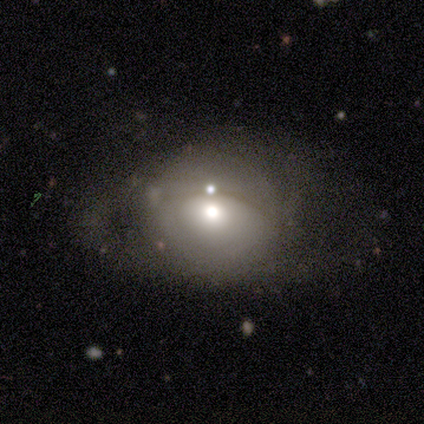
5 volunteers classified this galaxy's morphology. Smooth or featured?
  - featured or disk: 60% *
  - smooth: 40%
  - star or artifact: 0%
Edge-on disk?
  - no: 67% *
  - yes: 33%
Bar?
  - no: 100% *
  - strong: 0%
  - weak: 0%
Spiral arms?
  - yes: 50% * (tied)
  - no: 50% * (tied)
Spiral winding?
  - medium: 100% *
  - tight: 0%
  - loose: 0%
Spiral arm count?
  - can't tell: 100% *
  - 1: 0%
  - 2: 0%
  - 3: 0%
  - 4: 0%
  - more than 4: 0%
Bulge size?
  - large: 50% * (tied)
  - moderate: 50% * (tied)
  - dominant: 0%
  - small: 0%
  - none: 0%
Merging?
  - none: 60% *
  - major disturbance: 20%
  - merger: 20%
  - minor disturbance: 0%